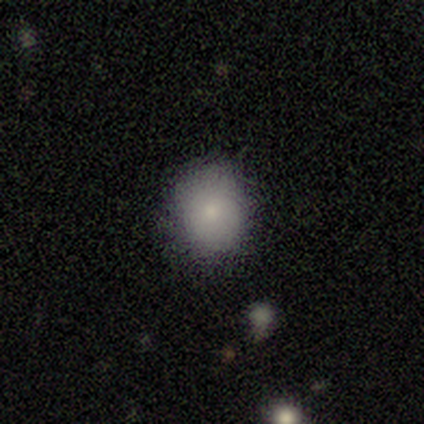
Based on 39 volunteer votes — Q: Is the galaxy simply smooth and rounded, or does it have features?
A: smooth — 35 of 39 (90%).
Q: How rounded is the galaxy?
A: round — 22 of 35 (63%).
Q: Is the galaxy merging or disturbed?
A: none — 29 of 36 (81%).